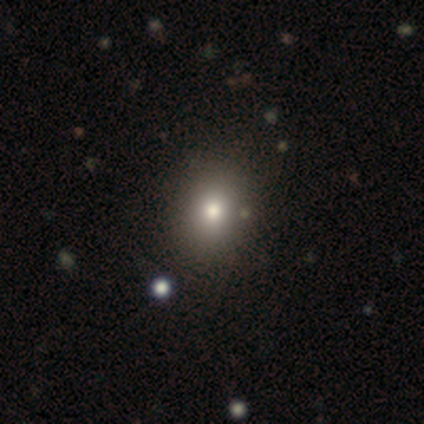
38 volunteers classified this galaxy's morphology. Smooth or featured? 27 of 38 (71%) said smooth. How rounded? 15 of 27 (56%) said round. Merging? 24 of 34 (71%) said none.